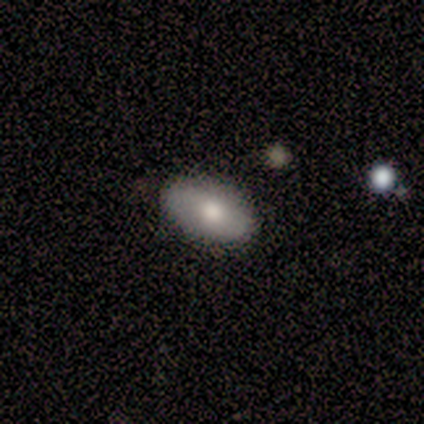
Smooth or featured? smooth (100%)
How rounded? in between (100%)
Merging? none (80%)